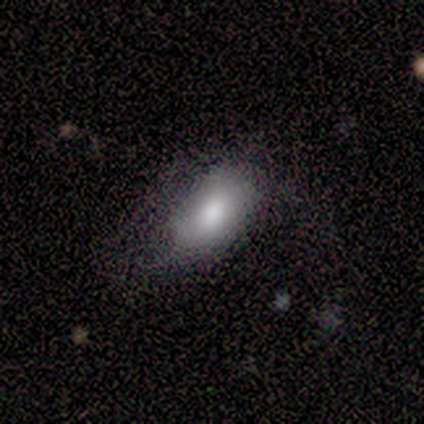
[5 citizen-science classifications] Smooth or featured?
  - smooth: 100% *
  - featured or disk: 0%
  - star or artifact: 0%
How rounded?
  - in between: 80% *
  - round: 20%
  - cigar-shaped: 0%
Merging?
  - minor disturbance: 60% *
  - none: 40%
  - major disturbance: 0%
  - merger: 0%